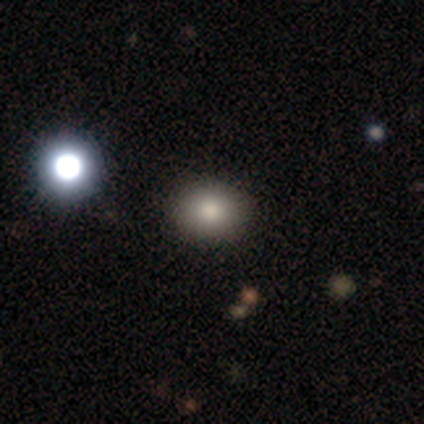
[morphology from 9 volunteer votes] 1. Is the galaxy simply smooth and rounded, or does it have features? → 78% smooth, 11% featured or disk, 11% star or artifact.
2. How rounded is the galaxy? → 57% in between, 43% round, 0% cigar-shaped.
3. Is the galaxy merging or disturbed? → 88% none, 12% minor disturbance, 0% major disturbance, 0% merger.